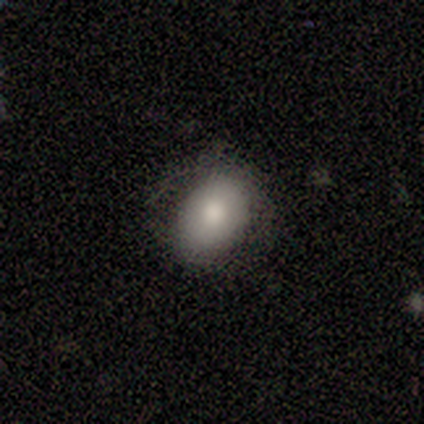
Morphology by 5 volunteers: Volunteers were most divided on "how rounded" (2-way tie): round: 50%, in between: 50%, cigar-shaped: 0%. More confident: smooth or featured — smooth (80%); merging — none (75%).